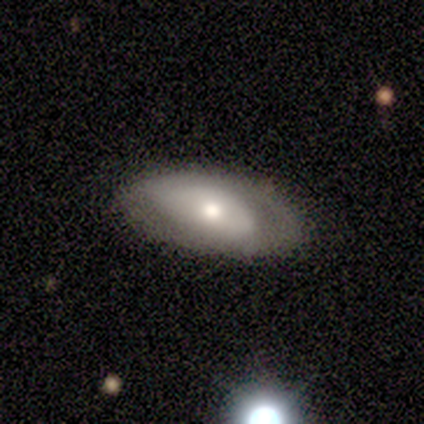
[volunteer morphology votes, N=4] Smooth or featured? featured or disk (75%)
Edge-on disk? no (100%)
Bar? strong (33%, tied with weak and no)
Spiral arms? yes (100%)
Spiral winding? tight (67%)
Spiral arm count? 2 (100%)
Bulge size? large (67%)
Merging? none (100%)